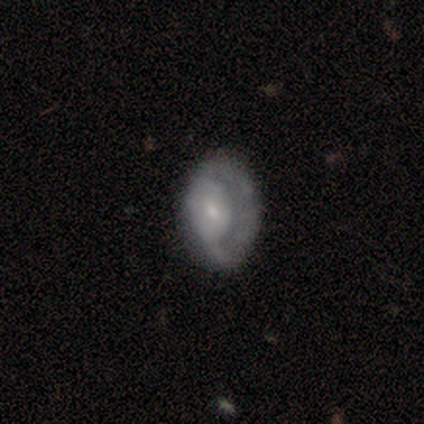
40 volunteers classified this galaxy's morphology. A featured or disk galaxy (62%) with no bar (68%), 1 (50%) tight (42%) spiral arms (55%) and a small central bulge (45%).

Vote fractions:
- Smooth or featured? featured or disk: 62% / smooth: 32% / star or artifact: 5%
- Edge-on disk? no: 88% / yes: 12%
- Bar? no: 68% / weak: 18% / strong: 14%
- Spiral arms? yes: 55% / no: 45%
- Spiral winding? tight: 42% / medium: 33% / loose: 25%
- Spiral arm count? 1: 50% / can't tell: 42% / 2: 8% / 3: 0% / 4: 0% / more than 4: 0%
- Bulge size? small: 45% / moderate: 41% / dominant: 5% / large: 5% / none: 5%
- Merging? none: 42% / major disturbance: 18% / minor disturbance: 8% / merger: 8%